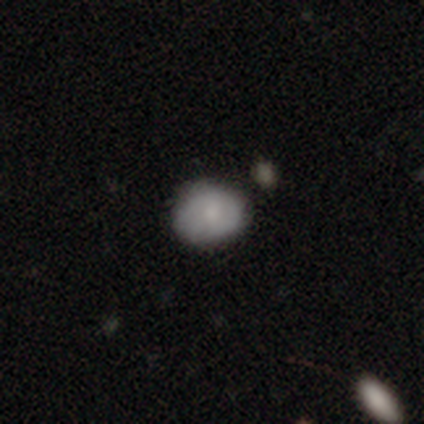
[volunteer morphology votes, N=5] smooth_or_featured: smooth (p=0.60) [alt: featured or disk p=0.40]
how_rounded: in between (p=0.67) [alt: round p=0.33]
merging: none (p=1.00)